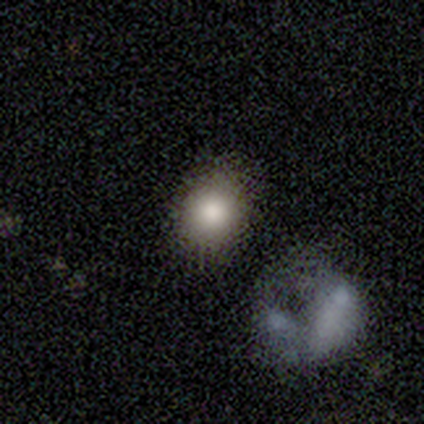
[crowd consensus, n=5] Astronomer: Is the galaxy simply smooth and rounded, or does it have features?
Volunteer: smooth — 100%.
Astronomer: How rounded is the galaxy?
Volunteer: round — 80%.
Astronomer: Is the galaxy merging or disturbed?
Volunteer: none — 80%.